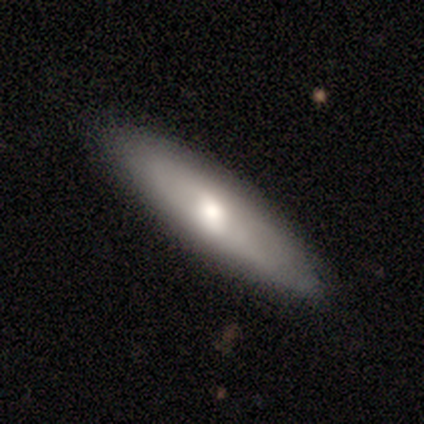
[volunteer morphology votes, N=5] smooth-or-featured: smooth: 80% | featured or disk: 20% | star or artifact: 0%
  how-rounded: cigar-shaped: 75% | in between: 25% | round: 0%
  merging: none: 80% | minor disturbance: 20% | major disturbance: 0% | merger: 0%